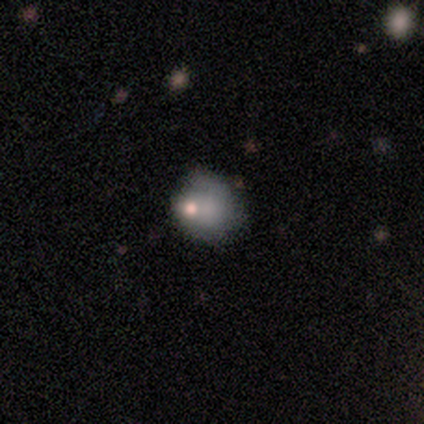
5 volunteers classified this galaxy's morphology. smooth 100%, featured or disk 0%, star or artifact 0%. Down the decision tree: how rounded — round (80%); merging — none (60%).